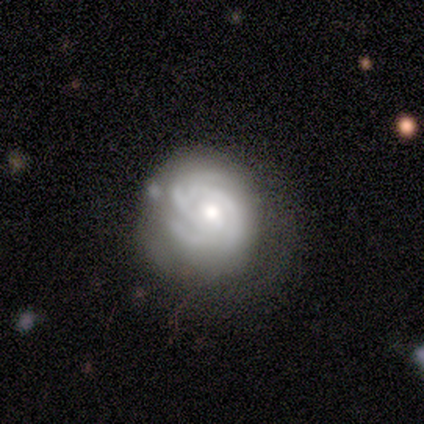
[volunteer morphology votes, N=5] A featured or disk galaxy (80%) with no bar (75%), 3 (50%) medium (50%) spiral arms (100%) and a moderate central bulge (75%). Merging: none (40%, tied with minor disturbance).